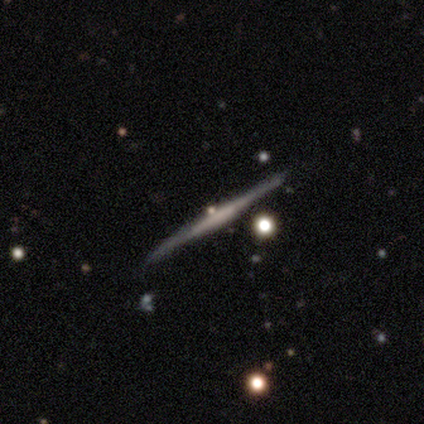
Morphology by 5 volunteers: Volunteers were most divided on "edge-on bulge": none: 75%, boxy: 25%, rounded: 0%. More confident: edge-on disk — yes (100%); merging — none (100%); smooth or featured — featured or disk (80%).